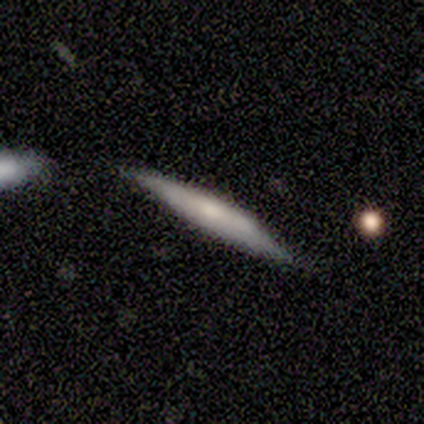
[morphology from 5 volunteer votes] Smooth or featured? 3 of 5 (60%) said featured or disk. Edge-on disk? 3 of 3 (100%) said yes. Edge-on bulge? 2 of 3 (67%) said rounded. Merging? 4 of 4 (100%) said none.